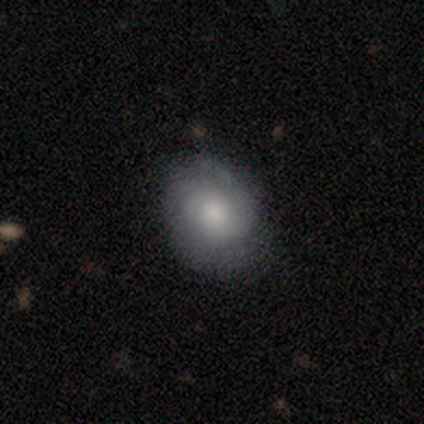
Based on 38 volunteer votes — Overall: featured or disk (55%; smooth 37%). Edge-on disk: no (100%). Bar: no (90%). Spiral arms: yes (100%). Spiral arm count: can't tell (38%; 2 33%). Spiral winding: tight (71%). Bulge size: moderate (57%; small 19%). Merging: none (86%).